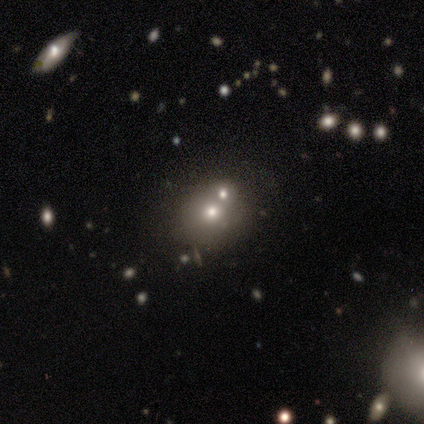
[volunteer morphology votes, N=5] A smooth galaxy with no disk features (80%) that is round (100%). Merging: none (100%).